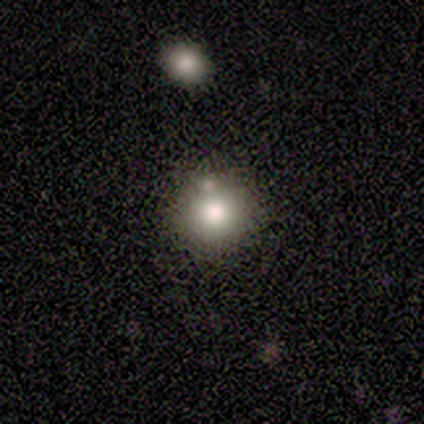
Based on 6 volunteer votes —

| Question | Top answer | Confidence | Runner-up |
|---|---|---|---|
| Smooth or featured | smooth | 33% | tied: featured or disk (33%), star or artifact (33%) |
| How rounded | round | 100% | — |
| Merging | none | 100% | — |